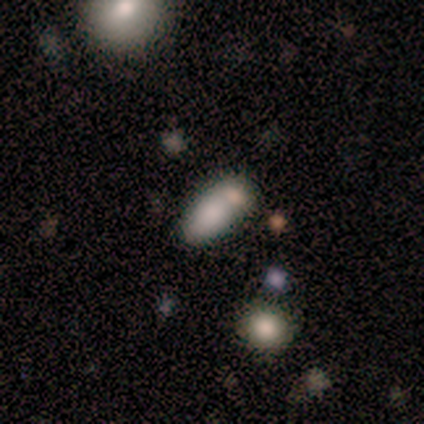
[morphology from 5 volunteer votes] Volunteers were most divided on "merging" (2-way tie): none: 40%, merger: 40%, minor disturbance: 20%, major disturbance: 0%. More confident: how rounded — in between (100%); smooth or featured — smooth (80%).